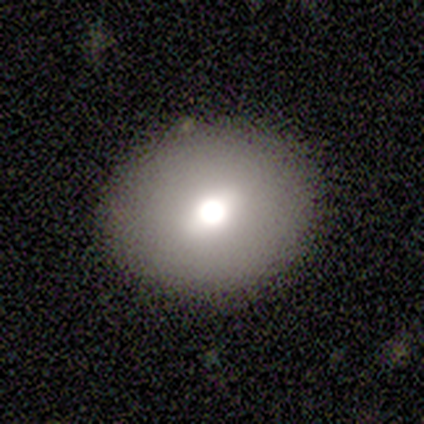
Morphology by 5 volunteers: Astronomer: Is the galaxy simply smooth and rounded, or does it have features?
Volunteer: smooth — 80%.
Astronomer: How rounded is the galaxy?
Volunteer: round — 50%, tied with in between at 50%.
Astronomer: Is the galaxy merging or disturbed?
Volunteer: none — 100%.